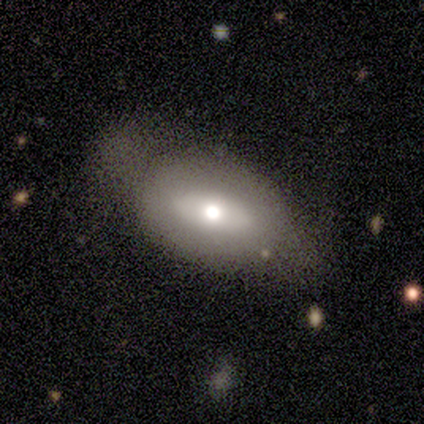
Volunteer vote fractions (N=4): Smooth or featured? 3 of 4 (75%) said smooth. How rounded? 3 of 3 (100%) said in between. Merging? 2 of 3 (67%) said minor disturbance.